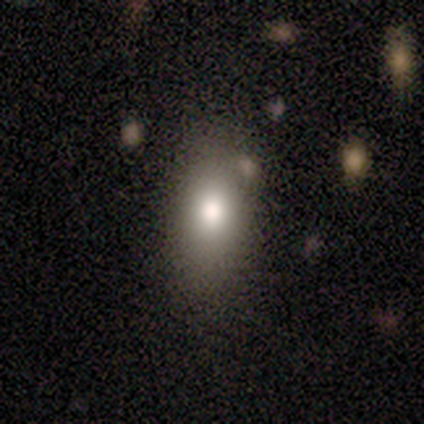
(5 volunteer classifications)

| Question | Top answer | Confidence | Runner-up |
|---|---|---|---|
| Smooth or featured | smooth | 80% | star or artifact (20%) |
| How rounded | in between | 100% | — |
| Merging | none | 75% | minor disturbance (25%) |